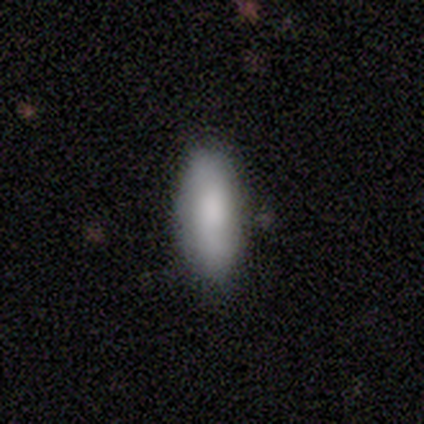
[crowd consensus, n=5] smooth 100%, featured or disk 0%, star or artifact 0%. Down the decision tree: how rounded — in between (100%); merging — none (60%).